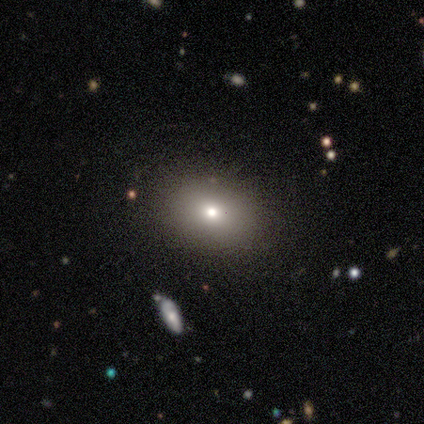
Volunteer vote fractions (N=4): Smooth or featured?
  - smooth: 50% * (tied)
  - star or artifact: 50% * (tied)
  - featured or disk: 0%
How rounded?
  - in between: 100% *
  - round: 0%
  - cigar-shaped: 0%
Merging?
  - none: 100% *
  - minor disturbance: 0%
  - major disturbance: 0%
  - merger: 0%